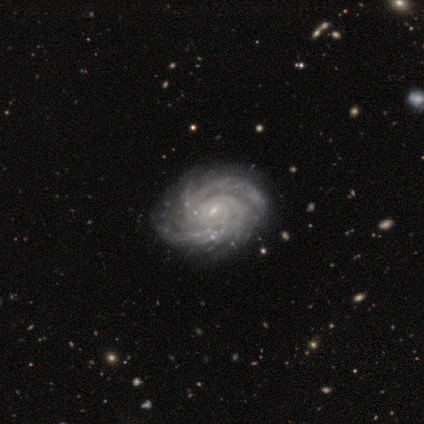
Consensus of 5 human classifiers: A featured or disk galaxy (100%) with a weak bar (80%), 2 (40%, tied with 3) tight (80%) spiral arms (100%) and a small central bulge (80%). Merging: none (80%).